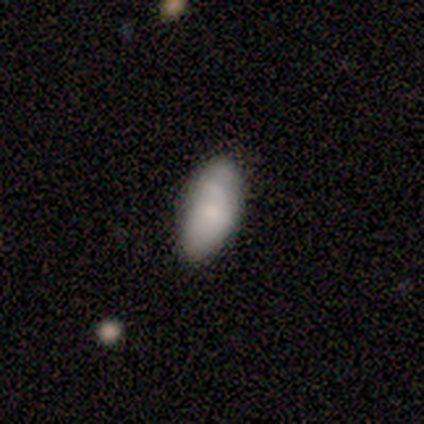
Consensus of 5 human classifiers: Smooth or featured? smooth (60%)
How rounded? in between (100%)
Merging? none (75%)